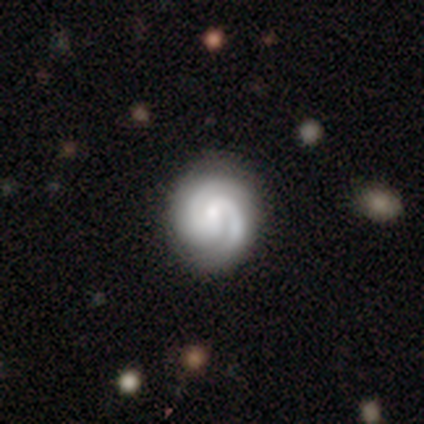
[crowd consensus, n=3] smooth_or_featured: featured or disk (p=1.00)
disk_edge_on: no (p=1.00)
bar: weak (p=0.67) [alt: no p=0.33]
has_spiral_arms: yes (p=1.00)
spiral_winding: tight (p=1.00)
spiral_arm_count: 2 (p=1.00)
bulge_size: small (p=0.67) [alt: moderate p=0.33]
merging: none (p=0.67) [alt: minor disturbance p=0.33]